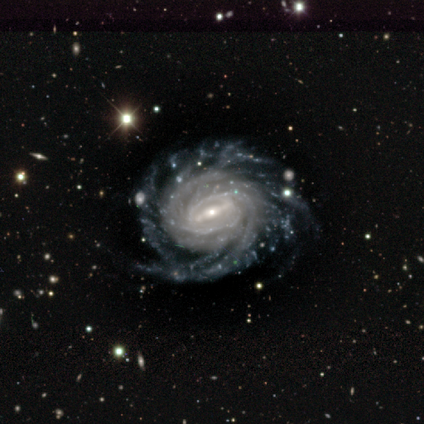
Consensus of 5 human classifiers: Morphology: type=featured or disk (100%); edge-on=no (100%); bar=strong (80%); spiral arms=yes (100%); winding=tight (80%); arm count=more than 4 (40%, tied with can't tell); bulge=small (80%); merging=none (80%).